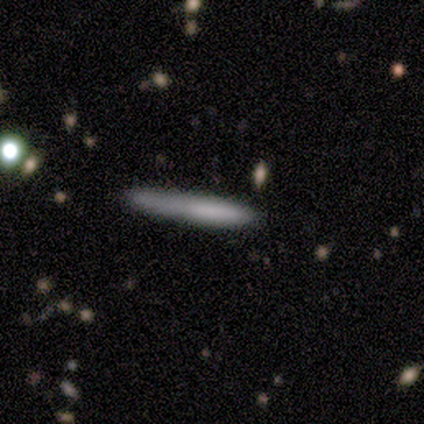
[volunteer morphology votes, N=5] smooth-or-featured: smooth: 100% | featured or disk: 0% | star or artifact: 0%
  how-rounded: cigar-shaped: 100% | round: 0% | in between: 0%
  merging: none: 80% | merger: 20% | minor disturbance: 0% | major disturbance: 0%